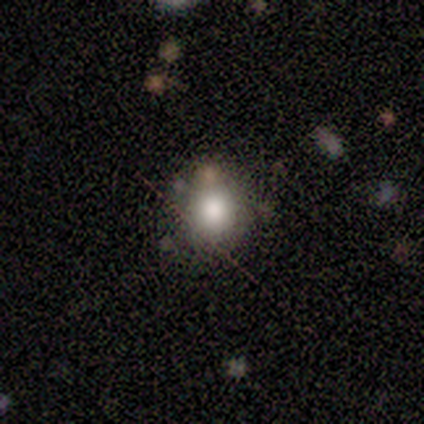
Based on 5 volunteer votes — smooth 80%, star or artifact 20%, featured or disk 0%. Down the decision tree: how rounded — round (75%); merging — none (75%).